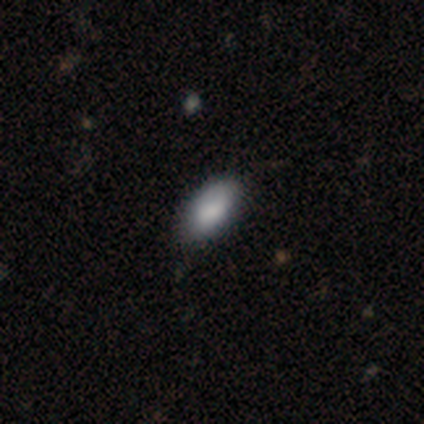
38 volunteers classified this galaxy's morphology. A smooth galaxy with no disk features (84%) that is in between round and cigar-shaped (97%). Merging: none (79%).